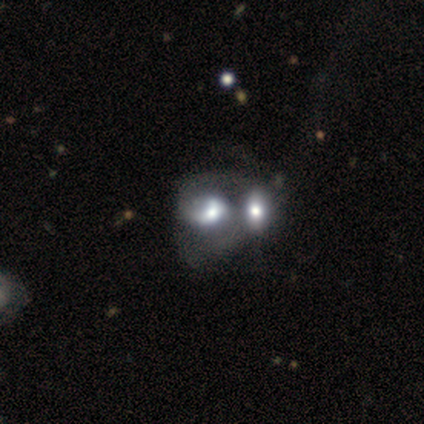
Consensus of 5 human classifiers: This is clearly a featured or disk galaxy (80%). It is likely not viewed edge-on (75%). Bar: clearly no (100%). Spiral arm pattern: likely no (67%). Central bulge: clearly moderate (100%). Merging: clearly merger (80%).